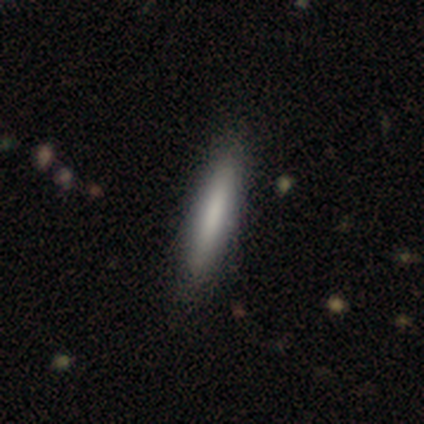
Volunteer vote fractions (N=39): This appears to be a smooth galaxy with no disk features (72%) that is cigar-shaped (93%). Merging: none (71%).